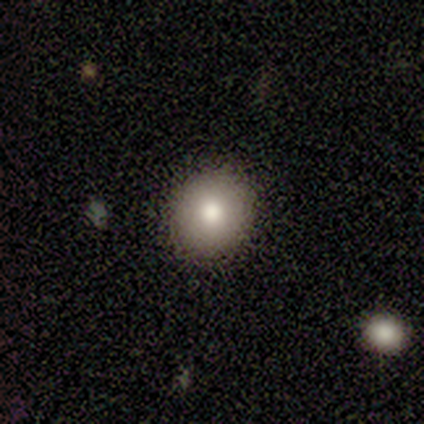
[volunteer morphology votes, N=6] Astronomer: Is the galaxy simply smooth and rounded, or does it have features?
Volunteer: smooth — 83%.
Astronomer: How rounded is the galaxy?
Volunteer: round — 100%.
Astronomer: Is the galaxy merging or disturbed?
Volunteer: none — 80%.